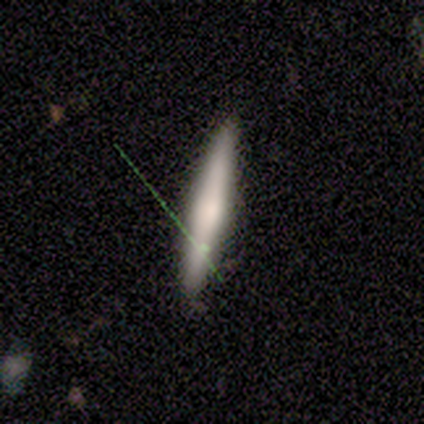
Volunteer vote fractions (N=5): A featured or disk galaxy (60%) viewed edge-on (100%) with no central bulge (67%).

Vote fractions:
- Smooth or featured? featured or disk: 60% / smooth: 20% / star or artifact: 20%
- Edge-on disk? yes: 100% / no: 0%
- Edge-on bulge? none: 67% / rounded: 33% / boxy: 0%
- Merging? none: 100% / minor disturbance: 0% / major disturbance: 0% / merger: 0%